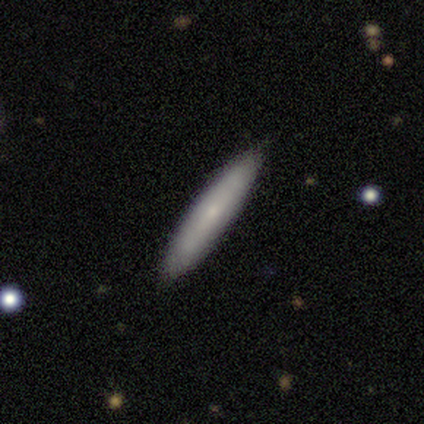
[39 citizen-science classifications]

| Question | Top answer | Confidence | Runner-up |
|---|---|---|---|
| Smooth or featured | smooth | 74% | featured or disk (26%) |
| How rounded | cigar-shaped | 93% | in between (7%) |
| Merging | none | 95% | minor disturbance (5%) |